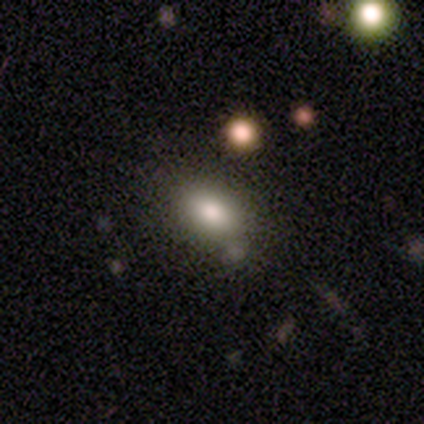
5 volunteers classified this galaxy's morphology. This is clearly a smooth galaxy (100%). How rounded: clearly in between (80%). Merging: clearly none (100%).